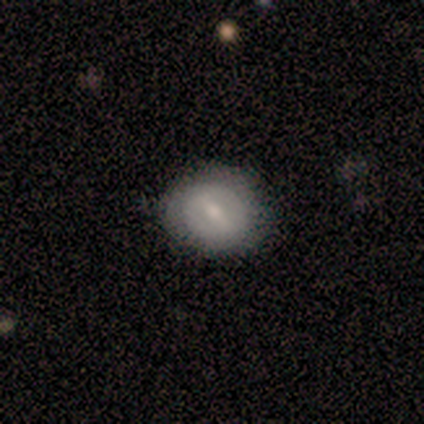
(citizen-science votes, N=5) Smooth or featured? smooth (60%)
How rounded? in between (67%)
Merging? none (80%)